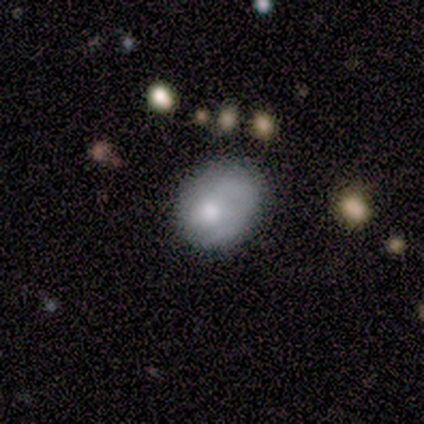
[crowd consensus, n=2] smooth-or-featured: smooth: 50% (tied) | star or artifact: 50% (tied) | featured or disk: 0%
  how-rounded: round: 100% | in between: 0% | cigar-shaped: 0%
  merging: major disturbance: 100% | none: 0% | minor disturbance: 0% | merger: 0%